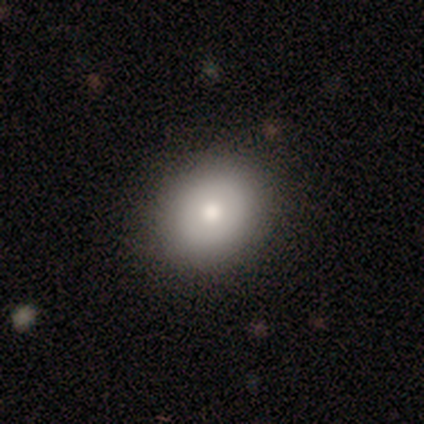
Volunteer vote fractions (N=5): smooth 80%, star or artifact 20%, featured or disk 0%. Down the decision tree: how rounded — round (75%); merging — none (100%).